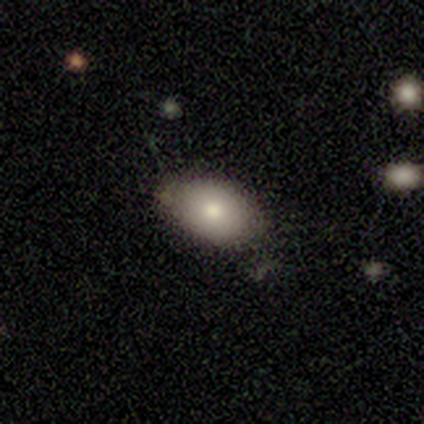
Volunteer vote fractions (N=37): Morphology: type=smooth (73%); roundness=in between (89%); merging=none (67%).